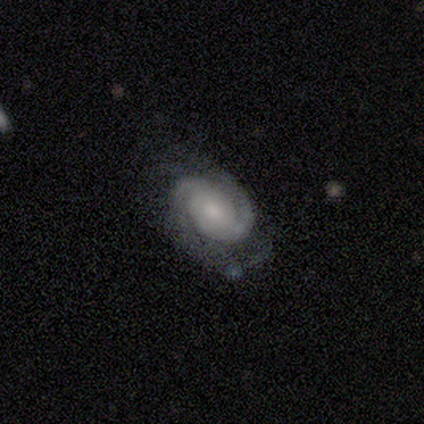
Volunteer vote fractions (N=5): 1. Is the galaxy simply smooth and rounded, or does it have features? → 100% featured or disk, 0% smooth, 0% star or artifact.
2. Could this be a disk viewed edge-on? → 80% no, 20% yes.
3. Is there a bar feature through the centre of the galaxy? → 50% weak (tied), 50% no (tied), 0% strong.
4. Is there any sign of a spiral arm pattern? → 100% yes, 0% no.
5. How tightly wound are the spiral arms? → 75% tight, 25% medium, 0% loose.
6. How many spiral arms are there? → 100% 2, 0% 1, 0% 3, 0% 4, 0% more than 4, 0% can't tell.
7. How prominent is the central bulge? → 75% moderate, 25% small, 0% dominant, 0% large, 0% none.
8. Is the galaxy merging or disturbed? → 100% none, 0% minor disturbance, 0% major disturbance, 0% merger.